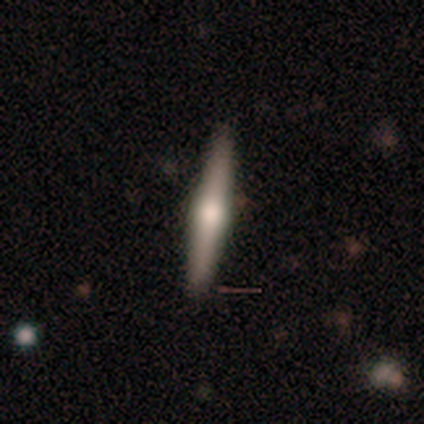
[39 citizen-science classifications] Overall: featured or disk (67%; smooth 31%). Edge-on disk: yes (96%). Edge-on bulge: rounded (92%). Merging: none (84%).